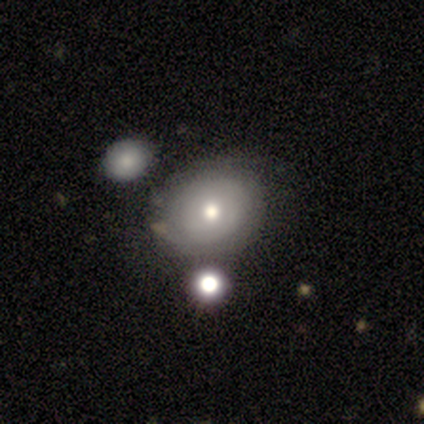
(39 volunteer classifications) Smooth or featured? 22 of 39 (56%) said smooth. How rounded? 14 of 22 (64%) said round. Merging? 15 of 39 (38%) said none.